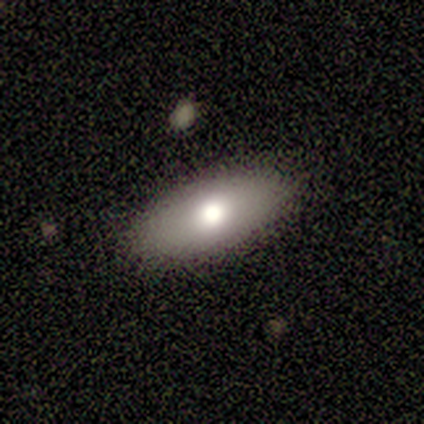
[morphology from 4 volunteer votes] This is clearly a smooth galaxy (100%). How rounded: likely in between (75%). Merging: likely none (75%).